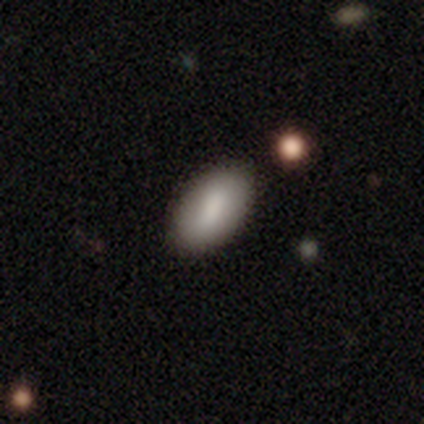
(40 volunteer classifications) smooth 70%, star or artifact 18%, featured or disk 12%. Down the decision tree: how rounded — in between (89%); merging — none (88%).